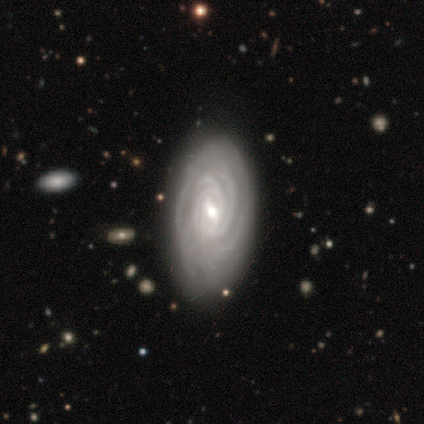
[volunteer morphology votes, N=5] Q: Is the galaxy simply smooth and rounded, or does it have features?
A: featured or disk — 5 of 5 (100%).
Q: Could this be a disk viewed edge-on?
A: no — 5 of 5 (100%).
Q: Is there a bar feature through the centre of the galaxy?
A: weak — 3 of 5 (60%).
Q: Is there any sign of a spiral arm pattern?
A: yes — 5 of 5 (100%).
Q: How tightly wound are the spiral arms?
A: tight — 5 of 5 (100%).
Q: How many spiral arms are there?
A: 3 — 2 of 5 (40%, tied with more than 4).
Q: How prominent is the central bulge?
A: moderate — 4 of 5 (80%).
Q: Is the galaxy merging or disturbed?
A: none — 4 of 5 (80%).